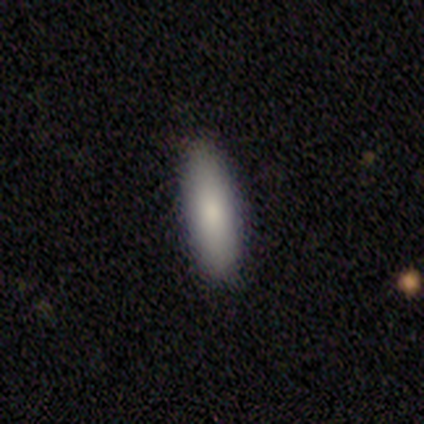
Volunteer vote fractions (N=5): A smooth galaxy with no disk features (100%) that is cigar-shaped (60%).

Vote fractions:
- Smooth or featured? smooth: 100% / featured or disk: 0% / star or artifact: 0%
- How rounded? cigar-shaped: 60% / in between: 40% / round: 0%
- Merging? none: 100% / minor disturbance: 0% / major disturbance: 0% / merger: 0%